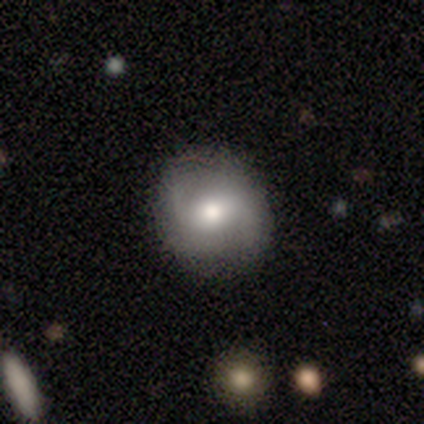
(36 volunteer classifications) This is possibly a featured or disk galaxy (58%). It is clearly not viewed edge-on (100%). Bar: possibly no (52%). Spiral arm pattern: clearly yes (81%). Spiral arm count: clearly 2 (100%). Spiral winding: possibly loose (59%). Central bulge: possibly moderate (57%). Merging: clearly none (80%).